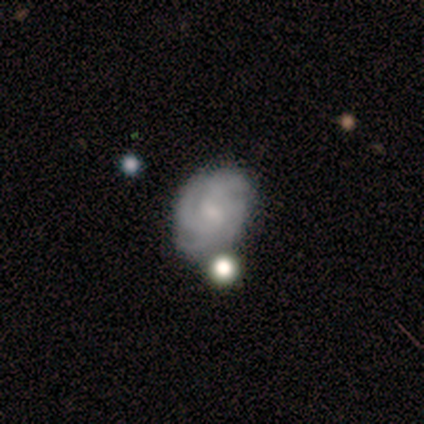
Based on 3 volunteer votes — Smooth or featured?
  - featured or disk: 67% *
  - smooth: 33%
  - star or artifact: 0%
Edge-on disk?
  - no: 100% *
  - yes: 0%
Bar?
  - weak: 50% * (tied)
  - no: 50% * (tied)
  - strong: 0%
Spiral arms?
  - yes: 100% *
  - no: 0%
Spiral winding?
  - tight: 50% * (tied)
  - medium: 50% * (tied)
  - loose: 0%
Spiral arm count?
  - 4: 50% * (tied)
  - can't tell: 50% * (tied)
  - 1: 0%
  - 2: 0%
  - 3: 0%
  - more than 4: 0%
Bulge size?
  - small: 100% *
  - dominant: 0%
  - large: 0%
  - moderate: 0%
  - none: 0%
Merging?
  - none: 67% *
  - minor disturbance: 33%
  - major disturbance: 0%
  - merger: 0%